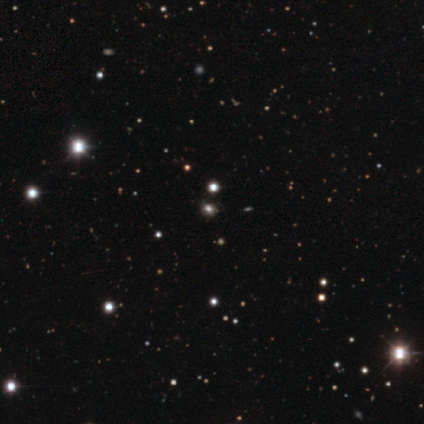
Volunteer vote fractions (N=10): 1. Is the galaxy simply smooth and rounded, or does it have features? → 60% smooth, 40% star or artifact, 0% featured or disk.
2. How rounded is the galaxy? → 50% round (tied), 50% in between (tied), 0% cigar-shaped.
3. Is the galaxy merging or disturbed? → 83% none, 17% minor disturbance, 0% major disturbance, 0% merger.